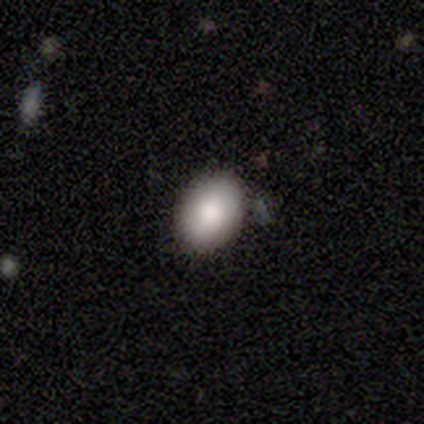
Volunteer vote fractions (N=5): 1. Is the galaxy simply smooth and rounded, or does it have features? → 80% smooth, 20% featured or disk, 0% star or artifact.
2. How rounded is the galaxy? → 75% in between, 25% round, 0% cigar-shaped.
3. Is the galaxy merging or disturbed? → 100% none, 0% minor disturbance, 0% major disturbance, 0% merger.